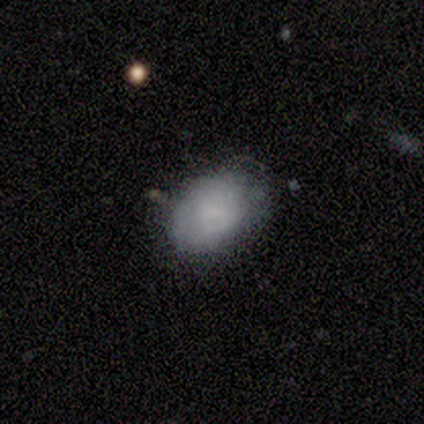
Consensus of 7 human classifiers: Q: Smooth or featured?
A: smooth (57%); runner-up: featured or disk (29%)
Q: How rounded?
A: in between (100%)
Q: Merging?
A: minor disturbance (67%); runner-up: none (33%)